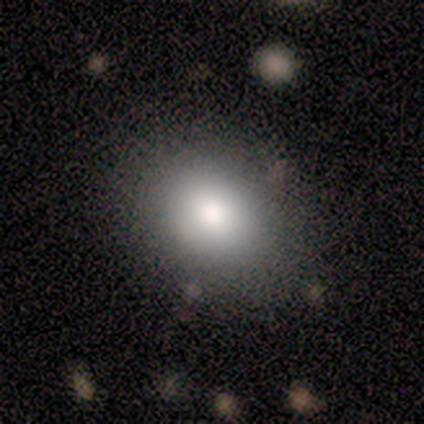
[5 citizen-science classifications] Smooth or featured?
  - smooth: 80% *
  - featured or disk: 20%
  - star or artifact: 0%
How rounded?
  - round: 75% *
  - in between: 25%
  - cigar-shaped: 0%
Merging?
  - none: 40% * (tied)
  - minor disturbance: 40% * (tied)
  - merger: 20%
  - major disturbance: 0%